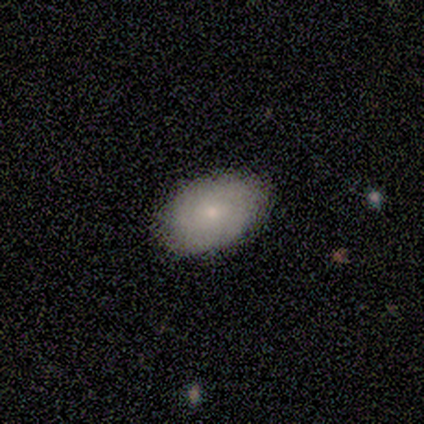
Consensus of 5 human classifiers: Morphology: type=featured or disk (60%); edge-on=no (100%); bar=no (100%); spiral arms=no (100%); bulge=small (100%); merging=none (80%).